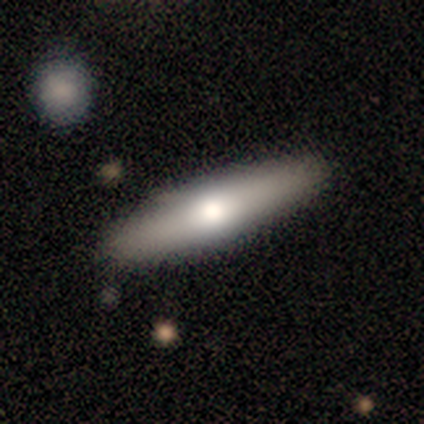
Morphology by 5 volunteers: Smooth or featured? 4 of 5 (80%) said smooth. How rounded? 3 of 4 (75%) said cigar-shaped. Merging? 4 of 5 (80%) said none.